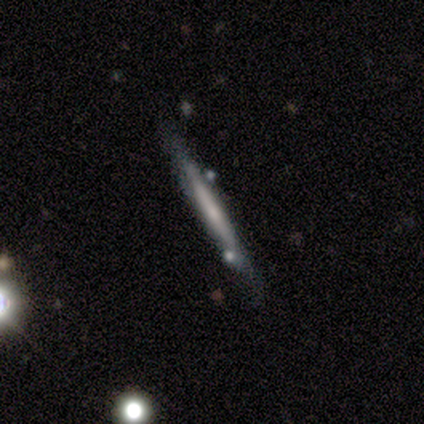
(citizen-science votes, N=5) Smooth or featured? featured or disk (60%)
Edge-on disk? yes (100%)
Edge-on bulge? rounded (67%)
Merging? none (60%)